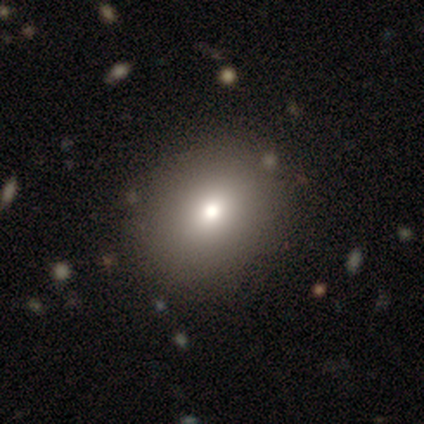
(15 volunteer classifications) Smooth or featured? 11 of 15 (73%) said smooth. How rounded? 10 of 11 (91%) said round. Merging? 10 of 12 (83%) said none.